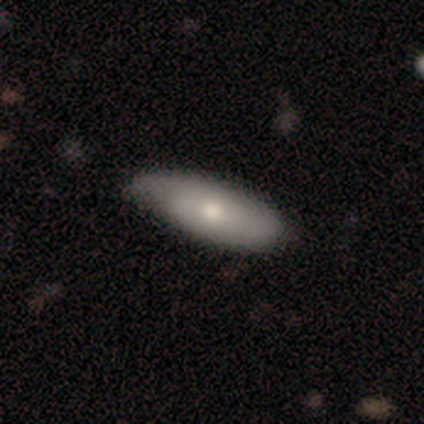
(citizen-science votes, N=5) smooth-or-featured: featured or disk: 80% | star or artifact: 20% | smooth: 0%
  disk-edge-on: no: 75% | yes: 25%
    bar: weak: 67% | no: 33% | strong: 0%
    has-spiral-arms: yes: 67% | no: 33%
      spiral-winding: tight: 50% (tied) | medium: 50% (tied) | loose: 0%
      spiral-arm-count: 1: 50% (tied) | 2: 50% (tied) | 3: 0% | 4: 0% | more than 4: 0% | can't tell: 0%
    bulge-size: small: 67% | moderate: 33% | dominant: 0% | large: 0% | none: 0%
  merging: none: 75% | minor disturbance: 25% | major disturbance: 0% | merger: 0%